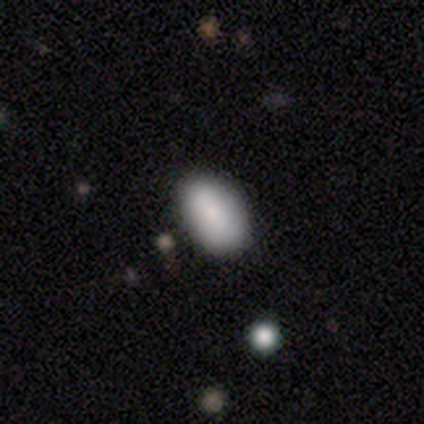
This appears to be a smooth galaxy with no disk features (86%) that is in between round and cigar-shaped (94%). Merging: none (80%).